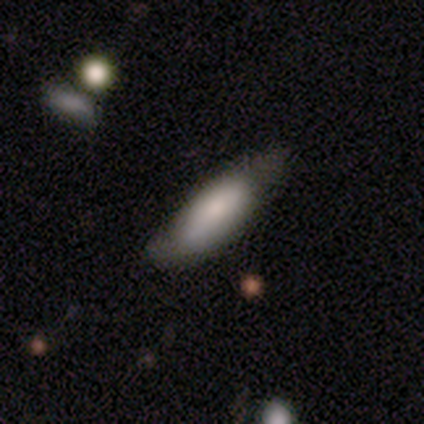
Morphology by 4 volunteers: smooth_or_featured: featured or disk (p=0.50) [alt: smooth p=0.25]
disk_edge_on: yes (p=0.50) [tied with: no p=0.50]
edge_on_bulge: rounded (p=1.00)
merging: none (p=0.67) [alt: minor disturbance p=0.33]